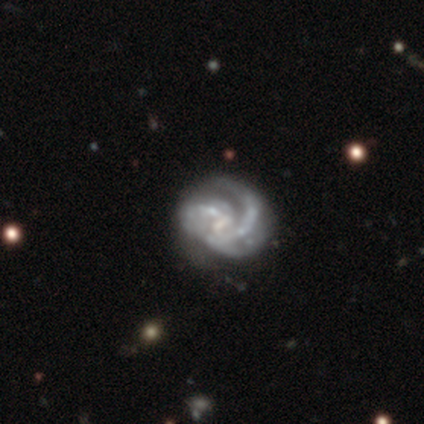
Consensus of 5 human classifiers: Q: Smooth or featured?
A: featured or disk (100%)
Q: Edge-on disk?
A: no (100%)
Q: Bar?
A: no (60%); runner-up: weak (40%)
Q: Spiral arms?
A: yes (80%); runner-up: no (20%)
Q: Spiral winding?
A: medium (75%); runner-up: tight (25%)
Q: Spiral arm count?
A: 3 (50%); runner-up: 1 (25%)
Q: Bulge size?
A: none (60%); runner-up: moderate (20%)
Q: Merging?
A: none (40%); tied with: major disturbance (40%)